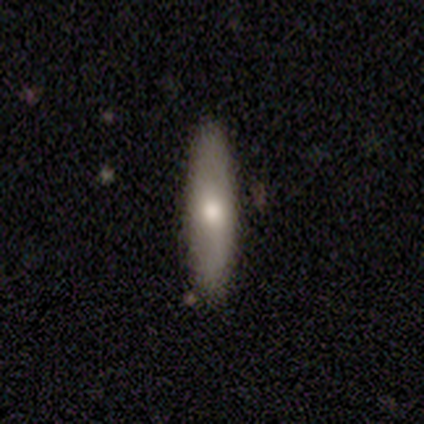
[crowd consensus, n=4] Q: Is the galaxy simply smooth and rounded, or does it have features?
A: smooth — 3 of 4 (75%).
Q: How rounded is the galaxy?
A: cigar-shaped — 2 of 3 (67%).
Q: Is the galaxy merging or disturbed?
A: none — 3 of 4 (75%).